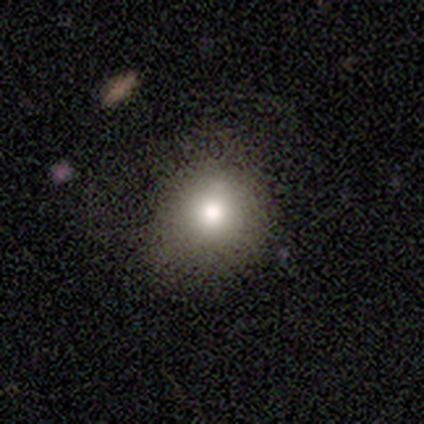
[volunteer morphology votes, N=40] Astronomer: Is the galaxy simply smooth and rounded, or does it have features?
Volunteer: smooth — 82%.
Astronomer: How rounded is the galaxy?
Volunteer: round — 91%.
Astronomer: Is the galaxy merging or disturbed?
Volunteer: none — 68%.